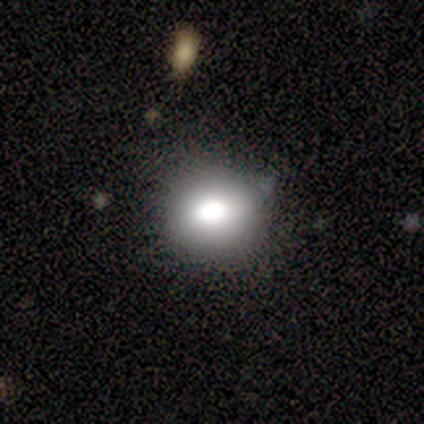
A smooth galaxy with no disk features (40%, tied with featured or disk) that is round (100%).

Vote fractions:
- Smooth or featured? smooth: 40% (tied) / featured or disk: 40% (tied) / star or artifact: 20%
- How rounded? round: 100% / in between: 0% / cigar-shaped: 0%
- Merging? none: 75% / minor disturbance: 25% / major disturbance: 0% / merger: 0%